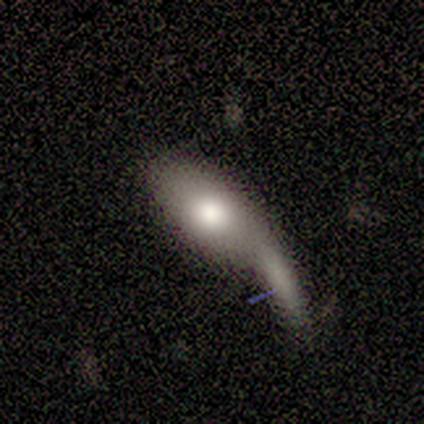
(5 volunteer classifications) A featured or disk galaxy (80%) with no bar (67%), no spiral arms (100%) and a moderate central bulge (67%).

Vote fractions:
- Smooth or featured? featured or disk: 80% / smooth: 20% / star or artifact: 0%
- Edge-on disk? no: 75% / yes: 25%
- Bar? no: 67% / weak: 33% / strong: 0%
- Spiral arms? no: 100% / yes: 0%
- Bulge size? moderate: 67% / none: 33% / dominant: 0% / large: 0% / small: 0%
- Merging? major disturbance: 80% / minor disturbance: 20% / none: 0% / merger: 0%